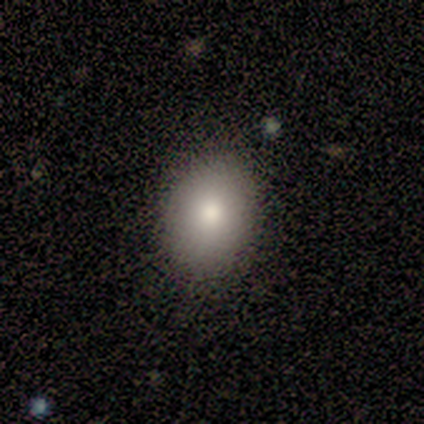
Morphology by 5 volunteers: type=smooth (80%); roundness=in between (75%); merging=none (100%).